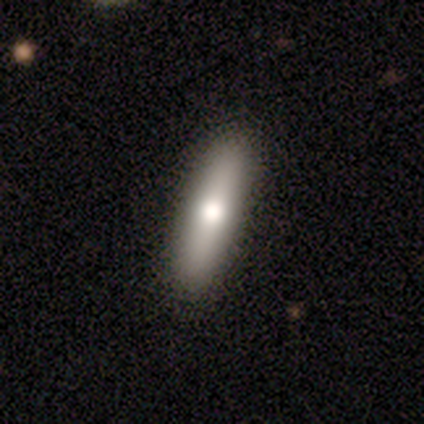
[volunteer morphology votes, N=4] Smooth or featured?
  - smooth: 75% *
  - star or artifact: 25%
  - featured or disk: 0%
How rounded?
  - cigar-shaped: 67% *
  - in between: 33%
  - round: 0%
Merging?
  - none: 100% *
  - minor disturbance: 0%
  - major disturbance: 0%
  - merger: 0%